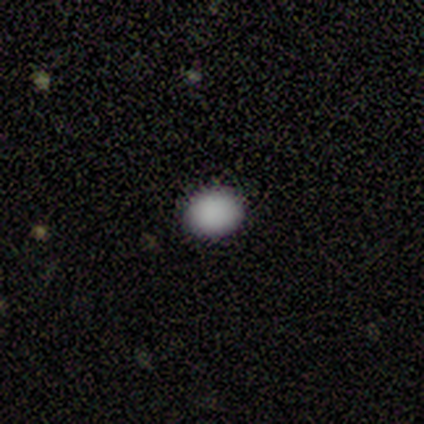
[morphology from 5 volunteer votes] Volunteers were most divided on "how rounded": round: 75%, in between: 25%, cigar-shaped: 0%. More confident: merging — none (100%); smooth or featured — smooth (80%).